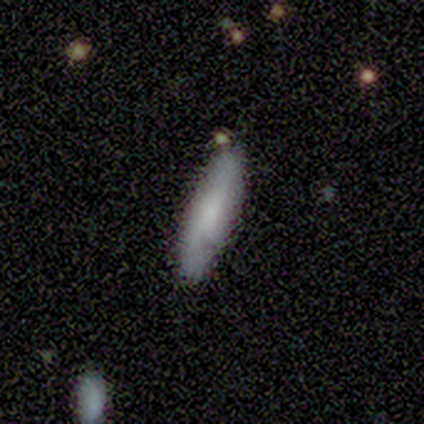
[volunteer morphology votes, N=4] Smooth or featured: smooth — 100%
How rounded: cigar-shaped — 100%
Merging: none — 100%